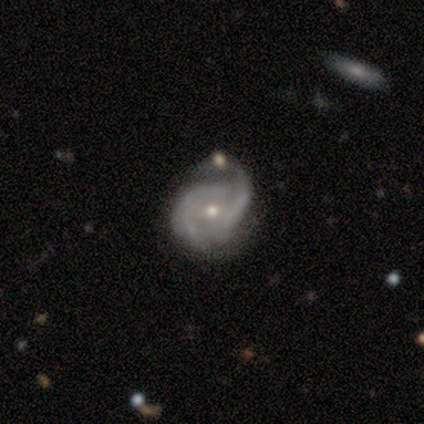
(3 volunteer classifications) A featured or disk galaxy (100%) with no bar (67%), 2 (67%) tight (67%) spiral arms (100%) and a small central bulge (67%). Merging: minor disturbance (67%).